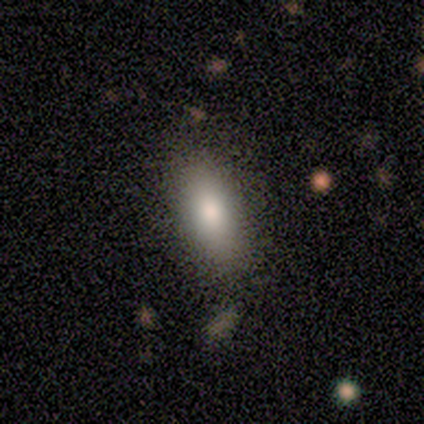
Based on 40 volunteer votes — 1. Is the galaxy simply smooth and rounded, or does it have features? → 90% smooth, 8% featured or disk, 2% star or artifact.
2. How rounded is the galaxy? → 86% in between, 14% cigar-shaped, 0% round.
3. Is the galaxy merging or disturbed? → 54% none, 13% minor disturbance, 8% merger, 0% major disturbance.